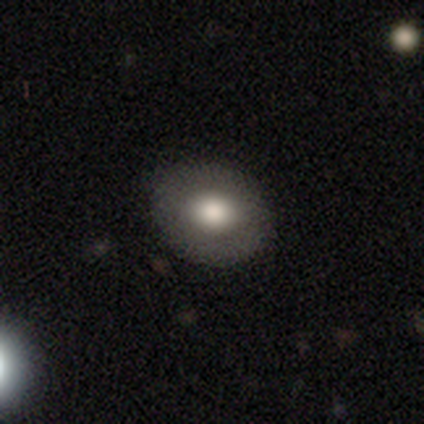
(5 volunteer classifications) This is clearly a smooth galaxy (100%). How rounded: clearly round (80%). Merging: clearly none (80%).